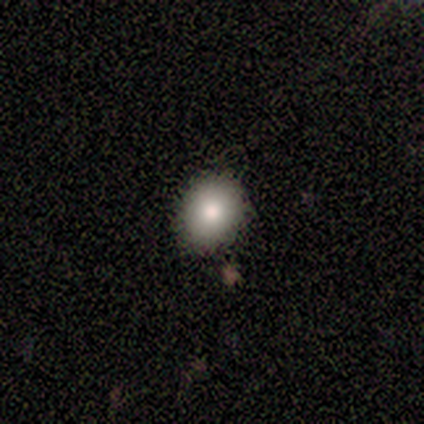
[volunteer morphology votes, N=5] smooth-or-featured: smooth: 80% | featured or disk: 20% | star or artifact: 0%
  how-rounded: round: 75% | in between: 25% | cigar-shaped: 0%
  merging: none: 80% | minor disturbance: 20% | major disturbance: 0% | merger: 0%